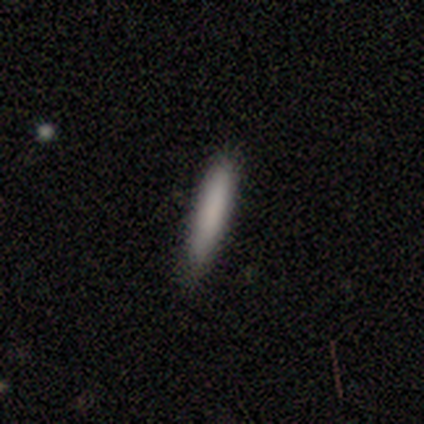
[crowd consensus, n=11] smooth 82%, featured or disk 9%, star or artifact 9%. Down the decision tree: how rounded — cigar-shaped (100%); merging — none (80%).